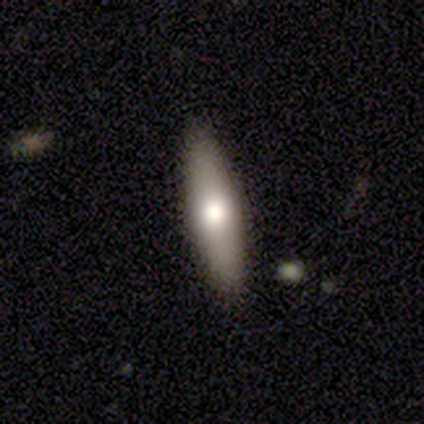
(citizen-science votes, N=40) Volunteers were most divided on "smooth or featured": smooth: 60%, featured or disk: 35%, star or artifact: 5%. More confident: merging — none (92%); how rounded — cigar-shaped (71%).